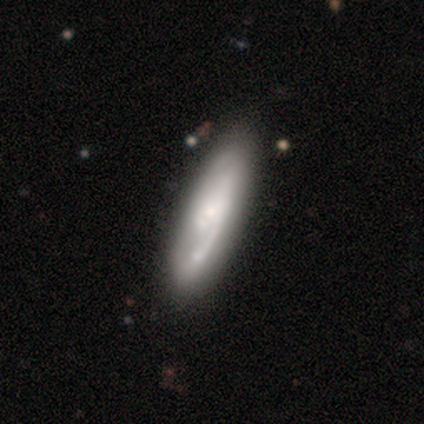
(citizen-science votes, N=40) This is possibly a featured or disk galaxy (57%). It is likely not viewed edge-on (78%). Bar: possibly no (50%). Spiral arm pattern: clearly yes (83%). Spiral arm count: marginally 1 (40%). Spiral winding: possibly loose (47%). Central bulge: possibly small (56%). Merging: marginally none (43%).